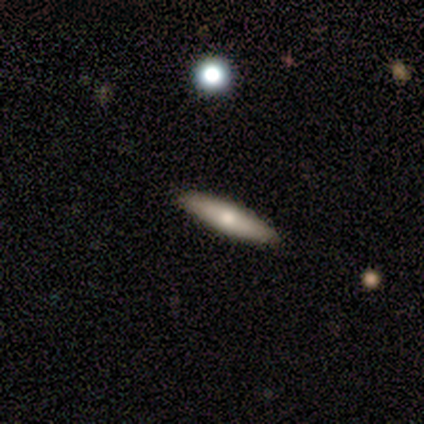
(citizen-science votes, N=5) Smooth or featured? 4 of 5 (80%) said smooth. How rounded? 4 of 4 (100%) said cigar-shaped. Merging? 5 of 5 (100%) said none.